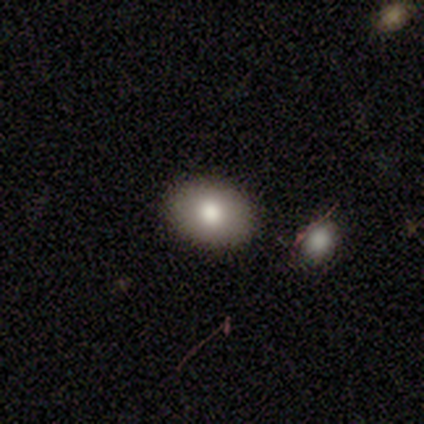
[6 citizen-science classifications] Volunteers were most divided on "merging": none: 60%, minor disturbance: 40%, major disturbance: 0%, merger: 0%. More confident: how rounded — in between (100%); smooth or featured — smooth (67%).